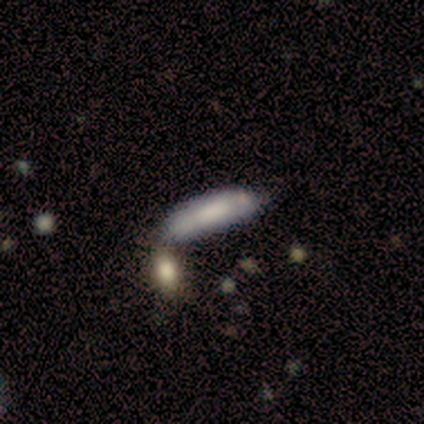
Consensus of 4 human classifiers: Smooth or featured: smooth — 50% (tied with featured or disk — 50%)
How rounded: in between — 50% (tied with cigar-shaped — 50%)
Merging: merger — 75% (none — 25%)